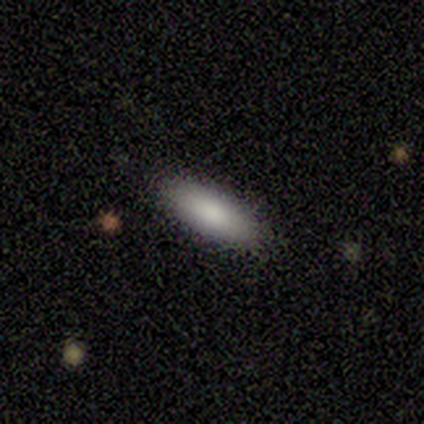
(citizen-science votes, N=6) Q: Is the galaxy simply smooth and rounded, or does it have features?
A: smooth — 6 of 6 (100%).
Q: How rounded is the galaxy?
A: in between — 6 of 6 (100%).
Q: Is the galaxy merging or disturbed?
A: none — 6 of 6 (100%).